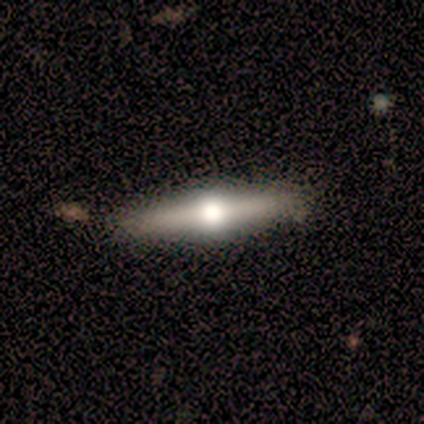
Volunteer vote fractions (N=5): Volunteers were most divided on "smooth or featured": featured or disk: 60%, smooth: 40%, star or artifact: 0%. More confident: edge-on disk — yes (100%); edge-on bulge — rounded (100%); merging — none (100%).